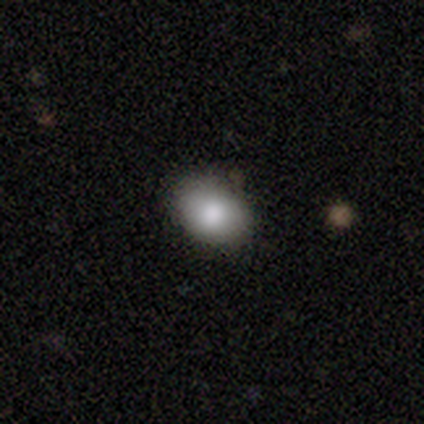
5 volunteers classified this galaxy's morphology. Q: Smooth or featured?
A: smooth (100%)
Q: How rounded?
A: in between (60%); runner-up: round (40%)
Q: Merging?
A: none (100%)